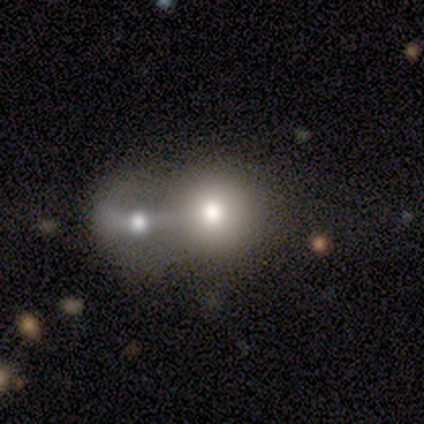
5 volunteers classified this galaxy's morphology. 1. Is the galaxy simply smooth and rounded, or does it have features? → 60% smooth, 20% featured or disk, 20% star or artifact.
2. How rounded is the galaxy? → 100% round, 0% in between, 0% cigar-shaped.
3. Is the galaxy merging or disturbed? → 50% none (tied), 50% merger (tied), 0% minor disturbance, 0% major disturbance.